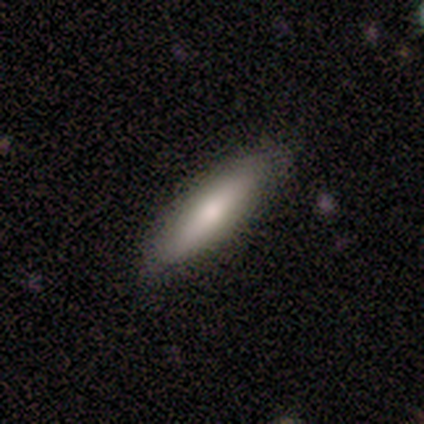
A smooth galaxy with no disk features (80%) that is in between round and cigar-shaped (50%, tied with cigar-shaped).

Vote fractions:
- Smooth or featured? smooth: 80% / star or artifact: 20% / featured or disk: 0%
- How rounded? in between: 50% (tied) / cigar-shaped: 50% (tied) / round: 0%
- Merging? none: 50% (tied) / minor disturbance: 50% (tied) / major disturbance: 0% / merger: 0%